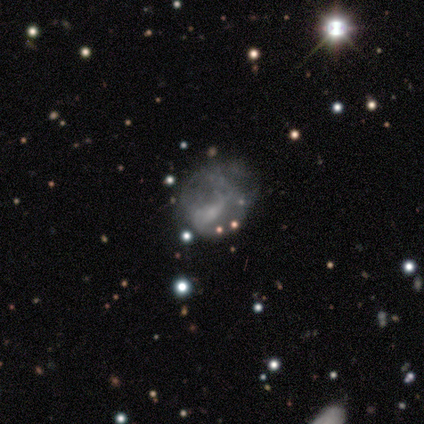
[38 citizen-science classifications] Smooth or featured? 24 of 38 (63%) said featured or disk. Edge-on disk? 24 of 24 (100%) said no. Bar? 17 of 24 (71%) said no. Spiral arms? 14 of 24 (58%) said no. Bulge size? 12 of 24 (50%) said small. Merging? 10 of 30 (33%) said major disturbance.